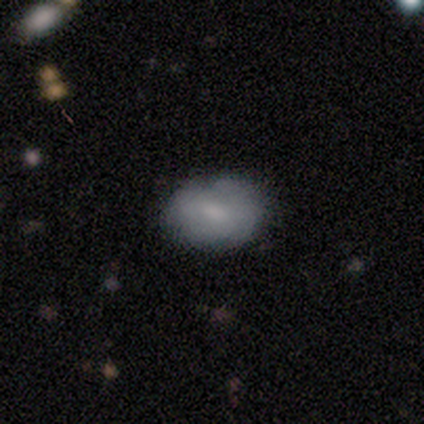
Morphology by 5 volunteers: A smooth galaxy with no disk features (80%) that is in between round and cigar-shaped (100%). Merging: none (80%).